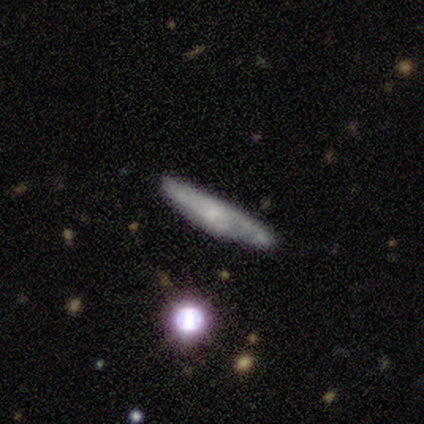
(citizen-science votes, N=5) This is likely a smooth galaxy (60%). How rounded: clearly cigar-shaped (100%). Merging: clearly none (100%).